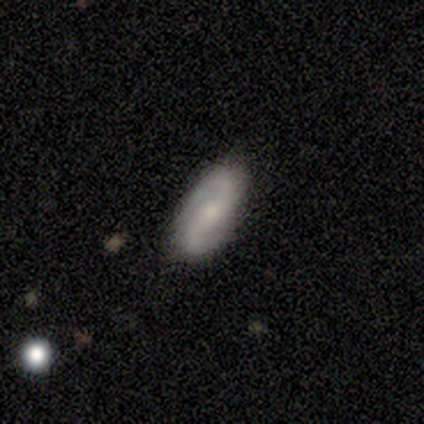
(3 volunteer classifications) Overall: featured or disk (67%; star or artifact 33%). Edge-on disk: yes (50%, tied with no). Edge-on bulge: none (100%). Merging: none (50%, tied with major disturbance).